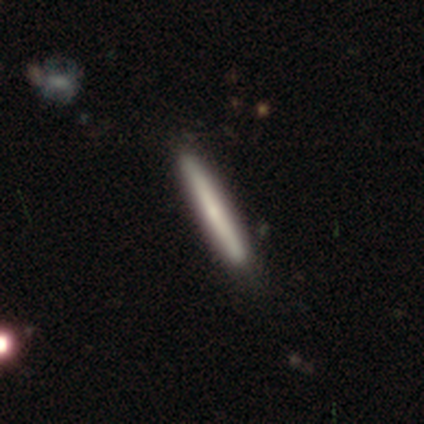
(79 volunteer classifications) smooth_or_featured: smooth (p=0.65) [alt: featured or disk p=0.32]
how_rounded: cigar-shaped (p=0.98) [alt: in between p=0.02]
merging: none (p=0.41) [alt: minor disturbance p=0.07]